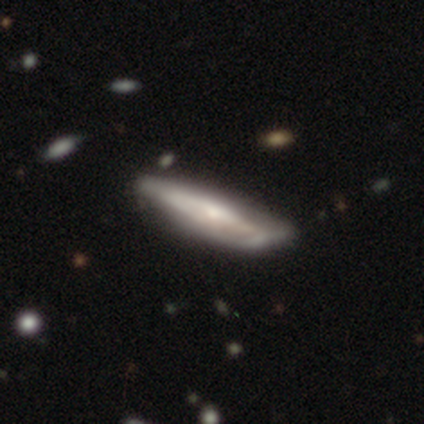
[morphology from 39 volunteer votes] Smooth or featured?
  - featured or disk: 67% *
  - smooth: 31%
  - star or artifact: 3%
Edge-on disk?
  - no: 65% *
  - yes: 35%
Bar?
  - no: 71% *
  - strong: 18%
  - weak: 12%
Spiral arms?
  - no: 59% *
  - yes: 41%
Bulge size?
  - small: 53% *
  - moderate: 41%
  - none: 6%
  - dominant: 0%
  - large: 0%
Merging?
  - none: 34% *
  - minor disturbance: 24%
  - merger: 8%
  - major disturbance: 5%